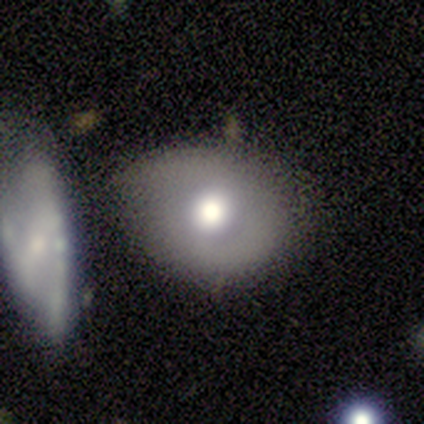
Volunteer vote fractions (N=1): smooth-or-featured: featured or disk: 100% | smooth: 0% | star or artifact: 0%
  disk-edge-on: no: 100% | yes: 0%
    bar: no: 100% | strong: 0% | weak: 0%
    has-spiral-arms: no: 100% | yes: 0%
    bulge-size: moderate: 100% | dominant: 0% | large: 0% | small: 0% | none: 0%
  merging: major disturbance: 100% | none: 0% | minor disturbance: 0% | merger: 0%